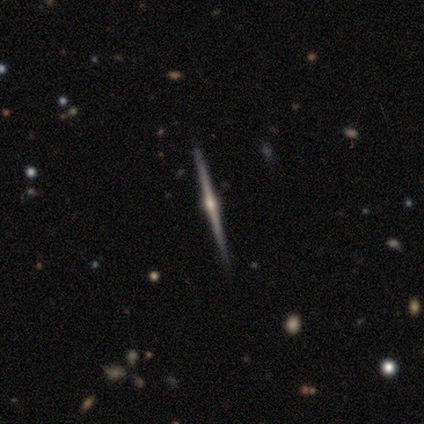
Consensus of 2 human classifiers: Smooth or featured: featured or disk — 100%
Edge-on disk: yes — 100%
Edge-on bulge: rounded — 100%
Merging: none — 100%